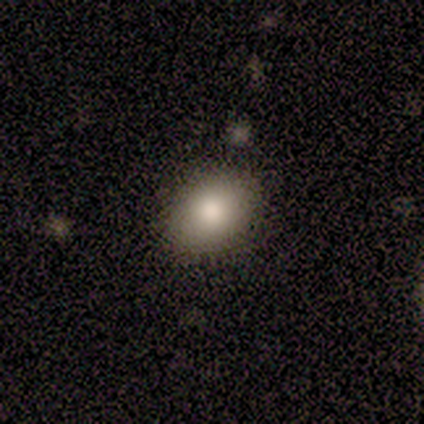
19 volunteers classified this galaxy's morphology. Overall: smooth (74%). How rounded: in between (79%). Merging: none (76%).